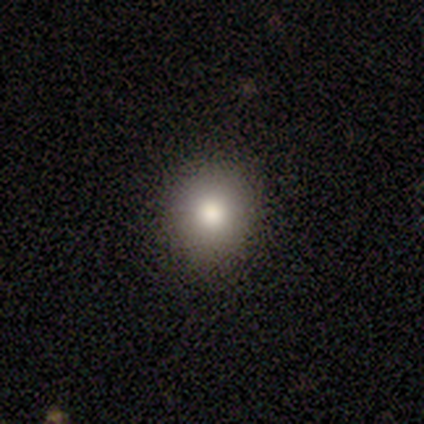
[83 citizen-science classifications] Morphology: type=smooth (80%); roundness=round (89%); merging=none (96%).